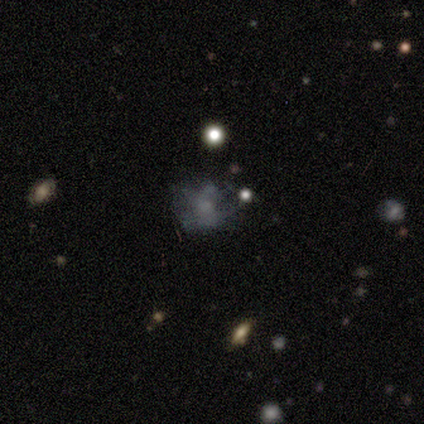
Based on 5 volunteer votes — featured or disk 60%, smooth 40%, star or artifact 0%. Down the decision tree: edge-on disk — no (100%); bar — no (100%); spiral arms — no (100%); bulge size — small (67%); merging — minor disturbance (60%).